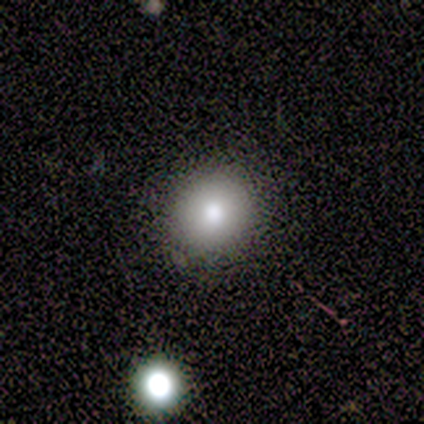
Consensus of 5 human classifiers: This is clearly a smooth galaxy (80%). How rounded: clearly round (100%). Merging: clearly none (100%).